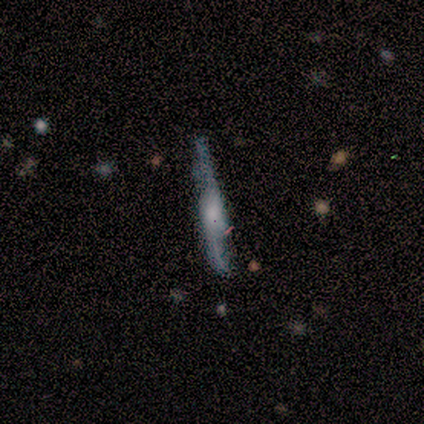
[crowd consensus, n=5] Smooth or featured? smooth (60%)
How rounded? cigar-shaped (100%)
Merging? none (100%)